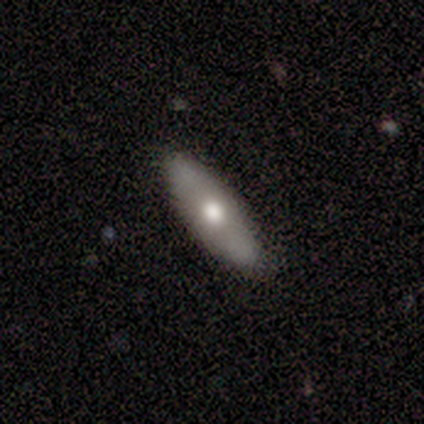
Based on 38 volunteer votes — Smooth or featured: smooth — 53% (featured or disk — 45%)
How rounded: in between — 55% (cigar-shaped — 45%)
Merging: none — 78% (minor disturbance — 16%)